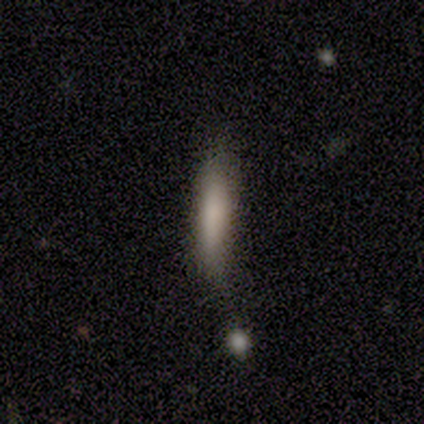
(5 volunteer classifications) This appears to be a smooth galaxy with no disk features (100%) that is cigar-shaped (100%). Merging: none (60%).